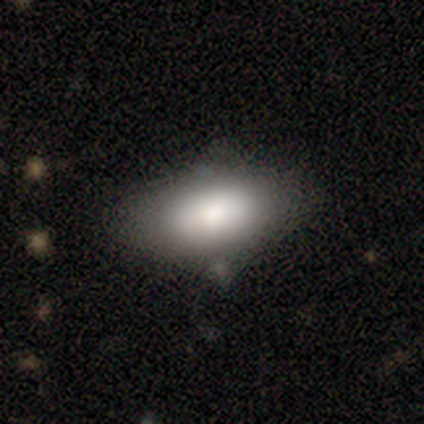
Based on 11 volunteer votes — This is clearly a smooth galaxy (100%). How rounded: clearly in between (100%). Merging: likely none (64%).